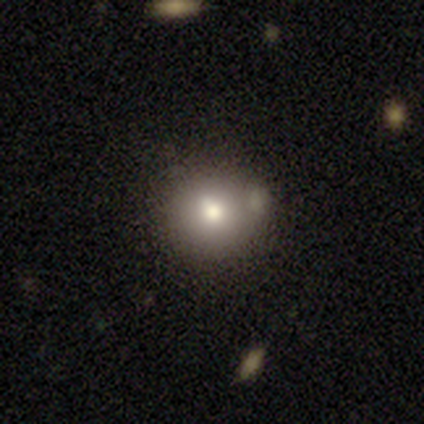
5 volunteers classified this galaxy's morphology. A smooth galaxy with no disk features (100%) that is round (100%). Merging: none (60%).